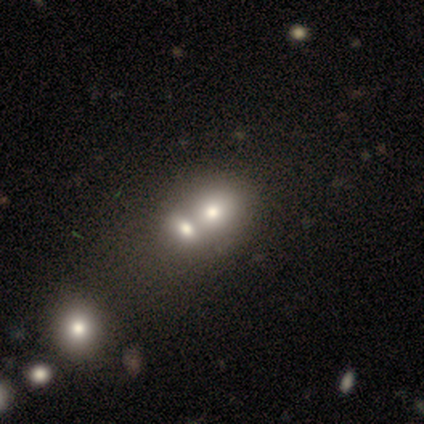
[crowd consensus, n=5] Q: Smooth or featured?
A: smooth (40%); tied with: star or artifact (40%)
Q: How rounded?
A: in between (100%)
Q: Merging?
A: merger (67%); runner-up: none (33%)